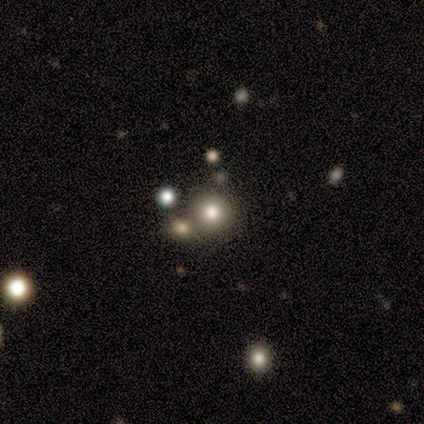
smooth_or_featured: smooth (p=0.80) [alt: featured or disk p=0.20]
how_rounded: round (p=1.00)
merging: none (p=0.40) [tied with: merger p=0.40]